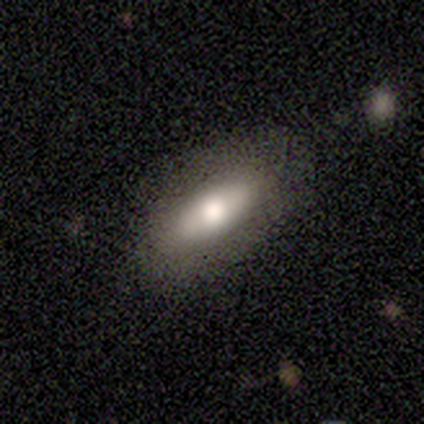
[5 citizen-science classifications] Q: Smooth or featured?
A: featured or disk (80%); runner-up: smooth (20%)
Q: Edge-on disk?
A: no (75%); runner-up: yes (25%)
Q: Bar?
A: no (67%); runner-up: strong (33%)
Q: Spiral arms?
A: no (100%)
Q: Bulge size?
A: dominant (33%); tied with: large (33%); moderate (33%)
Q: Merging?
A: none (80%); runner-up: minor disturbance (20%)